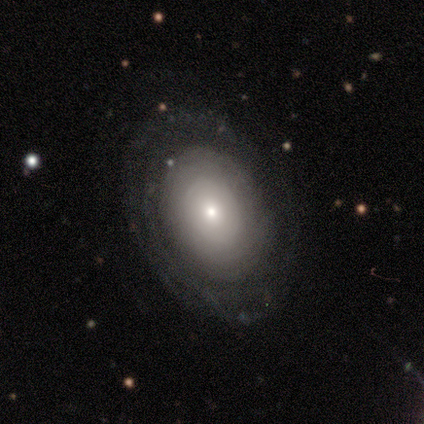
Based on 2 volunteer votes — A featured or disk galaxy (50%, tied with star or artifact) with no bar (100%), no spiral arms (100%) and a moderate central bulge (100%). Merging: none (100%).